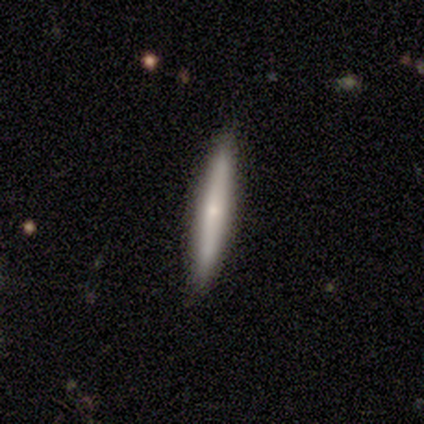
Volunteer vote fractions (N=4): Q: Smooth or featured?
A: smooth (100%)
Q: How rounded?
A: cigar-shaped (100%)
Q: Merging?
A: none (100%)